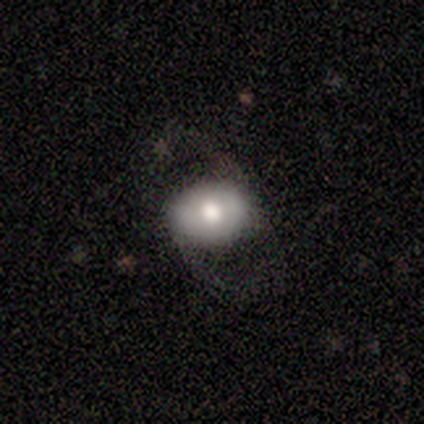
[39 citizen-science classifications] A smooth galaxy with no disk features (56%) that is in between round and cigar-shaped (64%).

Vote fractions:
- Smooth or featured? smooth: 56% / featured or disk: 41% / star or artifact: 3%
- How rounded? in between: 64% / round: 36% / cigar-shaped: 0%
- Merging? none: 61% / major disturbance: 26% / minor disturbance: 13% / merger: 0%